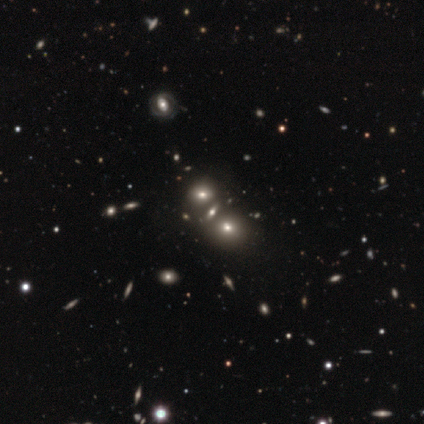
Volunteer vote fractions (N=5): Smooth or featured? smooth (80%)
How rounded? in between (50%)
Merging? none (40%)